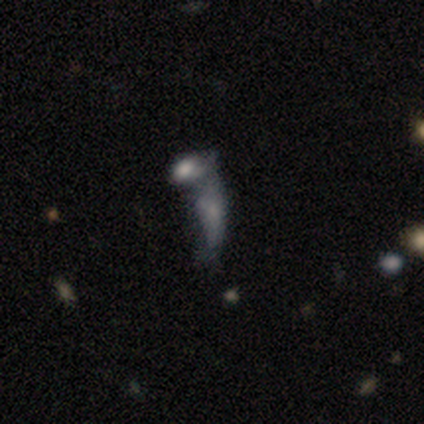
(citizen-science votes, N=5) Q: Smooth or featured?
A: smooth (80%); runner-up: featured or disk (20%)
Q: How rounded?
A: in between (75%); runner-up: cigar-shaped (25%)
Q: Merging?
A: merger (60%); runner-up: none (20%)